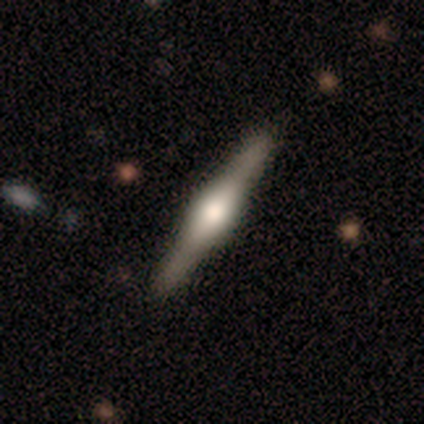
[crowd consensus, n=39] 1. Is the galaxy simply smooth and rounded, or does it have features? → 90% featured or disk, 8% smooth, 3% star or artifact.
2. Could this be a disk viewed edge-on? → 100% yes, 0% no.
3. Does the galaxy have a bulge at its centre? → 71% rounded, 29% boxy, 0% none.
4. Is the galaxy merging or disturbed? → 47% none, 8% minor disturbance, 3% merger, 0% major disturbance.